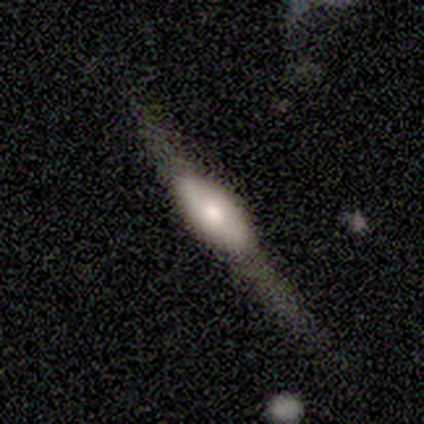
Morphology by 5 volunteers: This appears to be a featured or disk galaxy (60%) viewed edge-on (67%) with a rounded central bulge (100%). Merging: minor disturbance (60%).